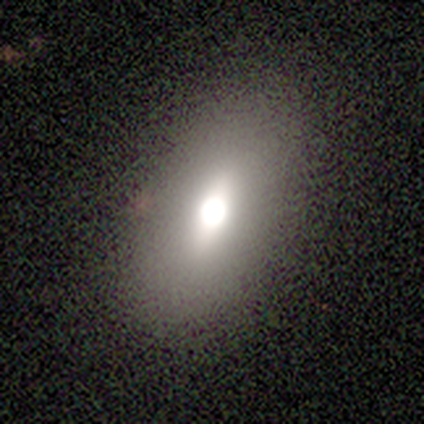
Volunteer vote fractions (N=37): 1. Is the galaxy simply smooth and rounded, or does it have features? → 59% smooth, 24% featured or disk, 16% star or artifact.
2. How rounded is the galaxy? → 86% in between, 9% cigar-shaped, 5% round.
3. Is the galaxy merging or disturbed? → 90% none, 6% minor disturbance, 3% major disturbance, 0% merger.